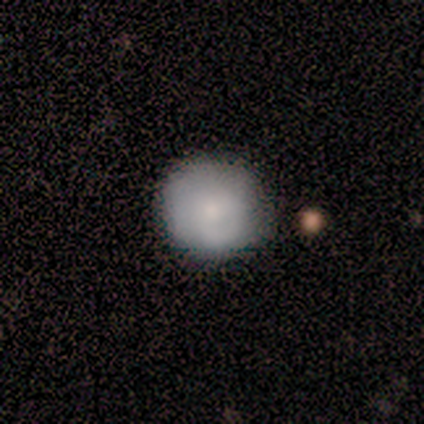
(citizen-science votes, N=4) smooth_or_featured: smooth (p=0.75) [alt: featured or disk p=0.25]
how_rounded: round (p=1.00)
merging: none (p=1.00)